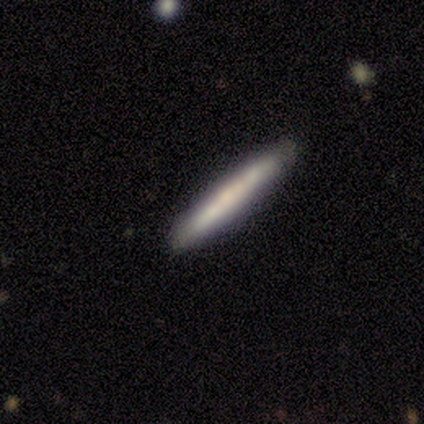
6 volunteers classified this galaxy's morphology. smooth_or_featured: featured or disk (p=1.00)
disk_edge_on: yes (p=1.00)
edge_on_bulge: none (p=0.67) [alt: rounded p=0.33]
merging: none (p=1.00)